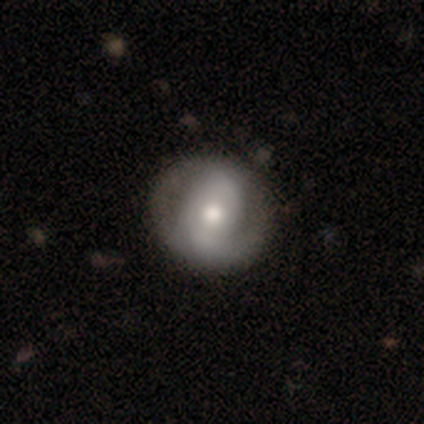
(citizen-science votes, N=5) featured or disk 80%, smooth 20%, star or artifact 0%. Down the decision tree: edge-on disk — no (100%); bar — strong (50%, tied with no); spiral arms — yes (75%); spiral arm count — 2 (100%); spiral winding — loose (67%); bulge size — large (50%); merging — minor disturbance (60%).